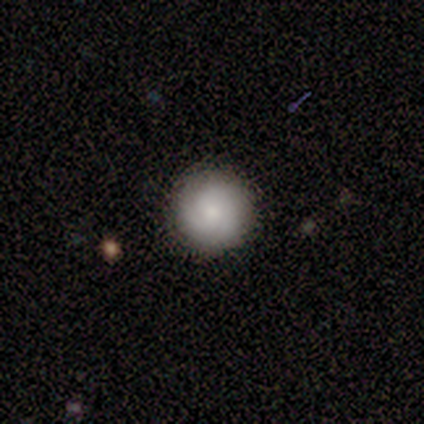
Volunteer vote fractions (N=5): Volunteers were most divided on "smooth or featured" (2-way tie): featured or disk: 40%, star or artifact: 40%, smooth: 20%; "spiral winding" (2-way tie): tight: 50%, medium: 50%, loose: 0%; "bulge size" (2-way tie): moderate: 50%, none: 50%, dominant: 0%, large: 0%, small: 0%. More confident: edge-on disk — no (100%); bar — no (100%); spiral arms — yes (100%); spiral arm count — 3 (100%); merging — none (100%).